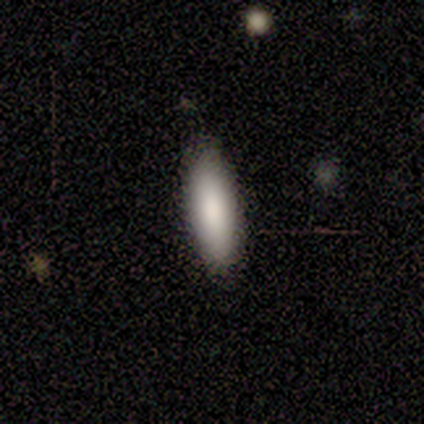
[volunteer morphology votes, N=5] This appears to be a smooth galaxy with no disk features (80%) that is in between round and cigar-shaped (75%). Merging: none (100%).